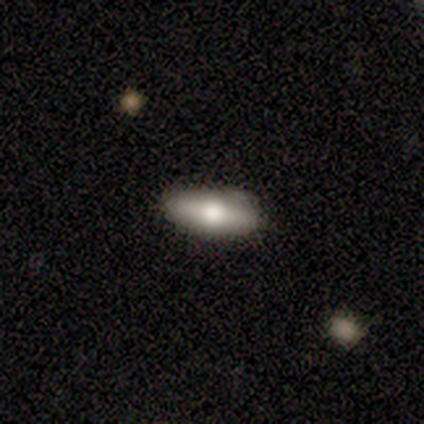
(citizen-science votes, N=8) Overall: smooth (75%). How rounded: in between (100%). Merging: none (88%).